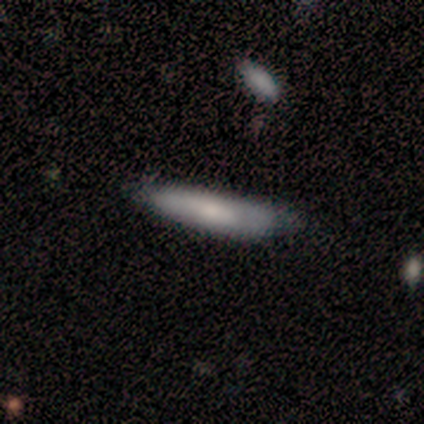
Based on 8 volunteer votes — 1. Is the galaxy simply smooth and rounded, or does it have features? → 100% smooth, 0% featured or disk, 0% star or artifact.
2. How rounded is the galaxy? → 88% cigar-shaped, 12% in between, 0% round.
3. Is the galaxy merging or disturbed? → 62% minor disturbance, 25% major disturbance, 12% none, 0% merger.